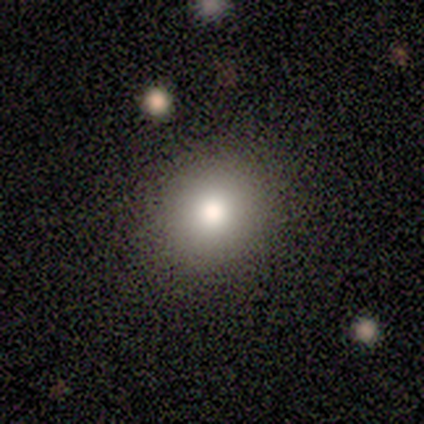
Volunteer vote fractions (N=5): Smooth or featured?
  - smooth: 80% *
  - star or artifact: 20%
  - featured or disk: 0%
How rounded?
  - round: 100% *
  - in between: 0%
  - cigar-shaped: 0%
Merging?
  - none: 100% *
  - minor disturbance: 0%
  - major disturbance: 0%
  - merger: 0%